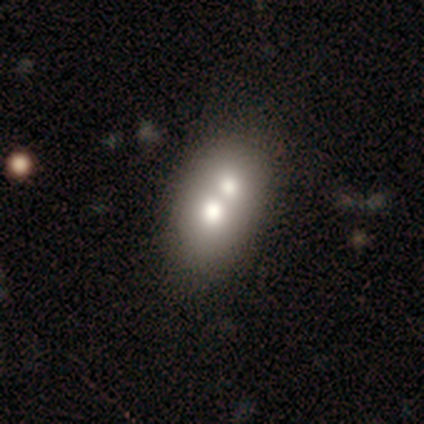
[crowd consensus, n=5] smooth 60%, featured or disk 40%, star or artifact 0%. Down the decision tree: how rounded — round (100%); merging — merger (80%).